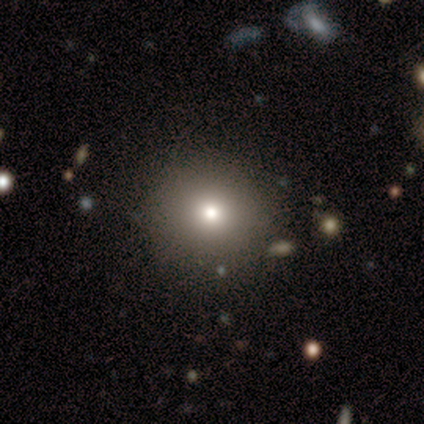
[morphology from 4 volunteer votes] Smooth or featured? 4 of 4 (100%) said smooth. How rounded? 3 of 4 (75%) said round. Merging? 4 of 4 (100%) said none.